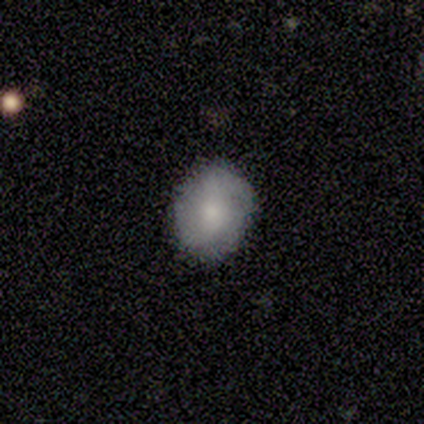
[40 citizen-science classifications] Q: Smooth or featured?
A: smooth (52%); runner-up: featured or disk (38%)
Q: How rounded?
A: in between (52%); runner-up: round (48%)
Q: Merging?
A: none (83%); runner-up: minor disturbance (11%)